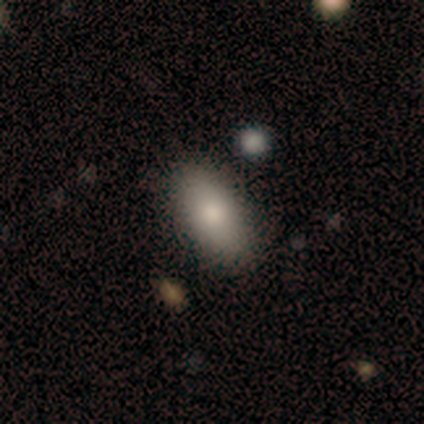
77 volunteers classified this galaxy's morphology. Q: Smooth or featured?
A: smooth (83%); runner-up: featured or disk (10%)
Q: How rounded?
A: in between (97%); runner-up: cigar-shaped (3%)
Q: Merging?
A: none (51%); runner-up: minor disturbance (6%)